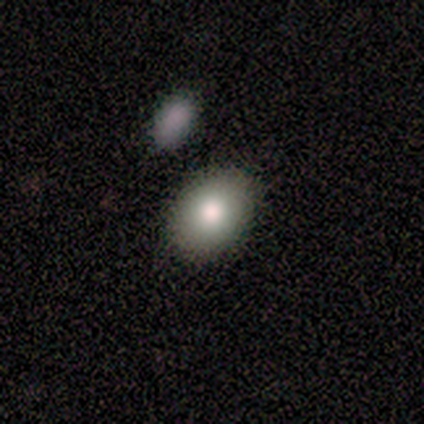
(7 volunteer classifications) A smooth galaxy with no disk features (71%) that is in between round and cigar-shaped (100%).

Vote fractions:
- Smooth or featured? smooth: 71% / featured or disk: 29% / star or artifact: 0%
- How rounded? in between: 100% / round: 0% / cigar-shaped: 0%
- Merging? none: 71% / minor disturbance: 14% / merger: 14% / major disturbance: 0%